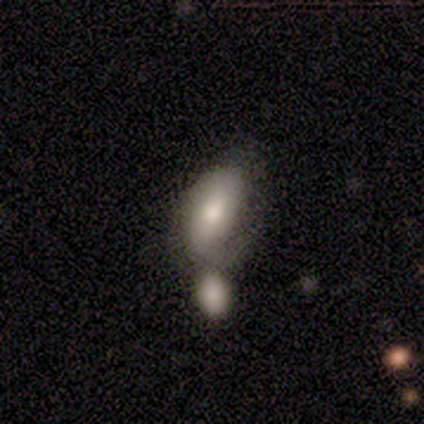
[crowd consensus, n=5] Smooth or featured?
  - smooth: 80% *
  - featured or disk: 20%
  - star or artifact: 0%
How rounded?
  - in between: 100% *
  - round: 0%
  - cigar-shaped: 0%
Merging?
  - none: 40% * (tied)
  - merger: 40% * (tied)
  - minor disturbance: 20%
  - major disturbance: 0%